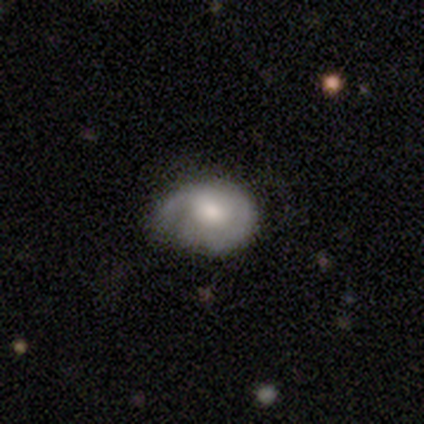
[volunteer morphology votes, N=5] type=smooth (60%); roundness=round (67%); merging=none (80%).